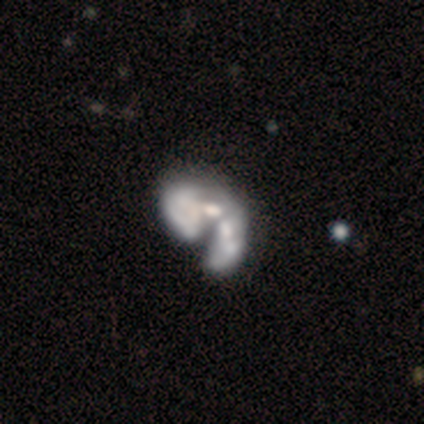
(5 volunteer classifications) A featured or disk galaxy (60%) with no bar (100%), no spiral arms (100%) and a moderate central bulge (50%, tied with none).

Vote fractions:
- Smooth or featured? featured or disk: 60% / smooth: 40% / star or artifact: 0%
- Edge-on disk? no: 67% / yes: 33%
- Bar? no: 100% / strong: 0% / weak: 0%
- Spiral arms? no: 100% / yes: 0%
- Bulge size? moderate: 50% (tied) / none: 50% (tied) / dominant: 0% / large: 0% / small: 0%
- Merging? major disturbance: 60% / merger: 40% / none: 0% / minor disturbance: 0%